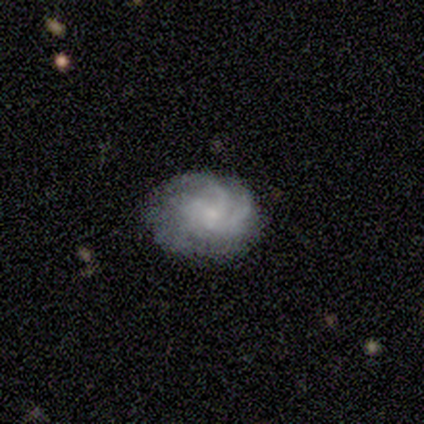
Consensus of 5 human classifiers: Q: Smooth or featured?
A: featured or disk (60%); runner-up: smooth (40%)
Q: Edge-on disk?
A: no (100%)
Q: Bar?
A: no (67%); runner-up: weak (33%)
Q: Spiral arms?
A: yes (67%); runner-up: no (33%)
Q: Spiral winding?
A: tight (100%)
Q: Spiral arm count?
A: more than 4 (50%); tied with: can't tell (50%)
Q: Bulge size?
A: small (67%); runner-up: none (33%)
Q: Merging?
A: none (100%)